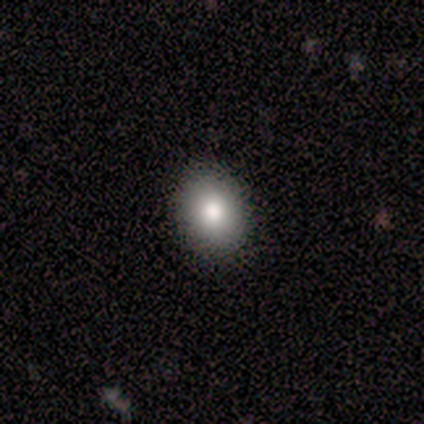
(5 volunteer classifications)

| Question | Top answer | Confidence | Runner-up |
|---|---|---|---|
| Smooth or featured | smooth | 60% | featured or disk (20%) |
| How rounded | round | 67% | in between (33%) |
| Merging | none | 100% | — |